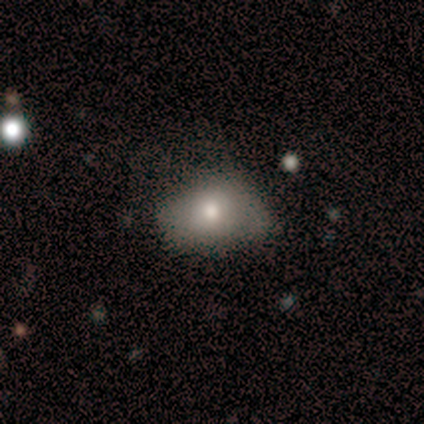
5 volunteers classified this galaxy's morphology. smooth_or_featured: smooth (p=0.40) [tied with: star or artifact p=0.40]
how_rounded: in between (p=1.00)
merging: none (p=0.67) [alt: major disturbance p=0.33]